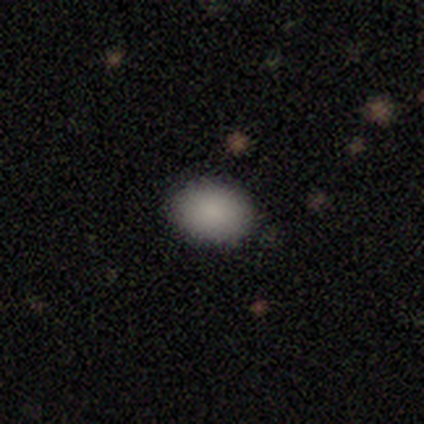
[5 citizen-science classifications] Q: Smooth or featured?
A: smooth (100%)
Q: How rounded?
A: in between (100%)
Q: Merging?
A: none (80%); runner-up: minor disturbance (20%)